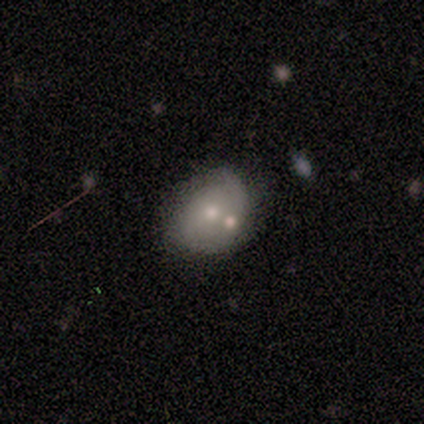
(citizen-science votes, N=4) smooth 75%, featured or disk 25%, star or artifact 0%. Down the decision tree: how rounded — in between (67%); merging — none (50%).